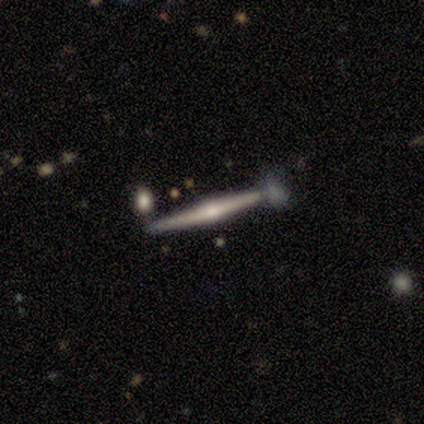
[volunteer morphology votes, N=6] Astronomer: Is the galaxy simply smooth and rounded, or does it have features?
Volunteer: featured or disk — 67%.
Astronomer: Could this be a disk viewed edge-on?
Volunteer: yes — 100%.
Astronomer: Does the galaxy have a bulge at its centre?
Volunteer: rounded — 100%.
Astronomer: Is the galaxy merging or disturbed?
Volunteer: none — 100%.